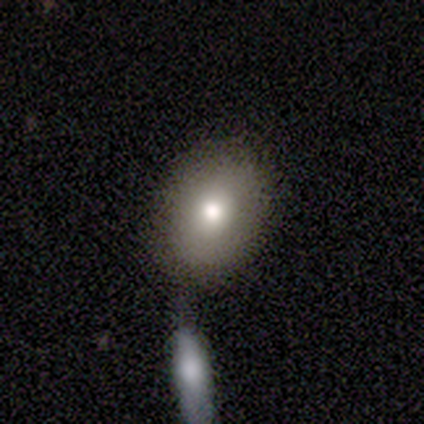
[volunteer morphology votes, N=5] smooth-or-featured: smooth: 40% (tied) | featured or disk: 40% (tied) | star or artifact: 20%
  how-rounded: round: 50% (tied) | in between: 50% (tied) | cigar-shaped: 0%
  merging: none: 50% | major disturbance: 25% | merger: 25% | minor disturbance: 0%